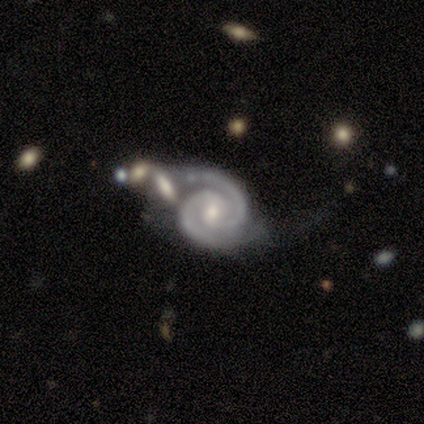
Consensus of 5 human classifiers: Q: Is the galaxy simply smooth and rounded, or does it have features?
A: featured or disk — 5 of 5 (100%).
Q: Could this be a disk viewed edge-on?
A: no — 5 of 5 (100%).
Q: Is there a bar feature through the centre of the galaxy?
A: weak — 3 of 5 (60%).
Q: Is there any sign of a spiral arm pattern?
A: yes — 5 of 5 (100%).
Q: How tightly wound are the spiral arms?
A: tight — 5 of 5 (100%).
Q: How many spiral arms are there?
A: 2 — 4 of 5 (80%).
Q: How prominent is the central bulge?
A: small — 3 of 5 (60%).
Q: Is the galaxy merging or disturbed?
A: minor disturbance — 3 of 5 (60%).